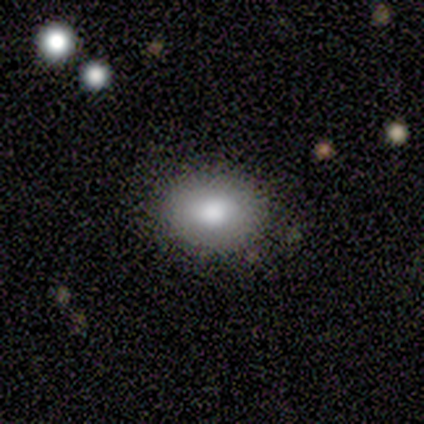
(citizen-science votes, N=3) This is marginally a smooth galaxy (33%, tied with featured or disk and star or artifact). How rounded: clearly round (100%). Merging: clearly none (100%).